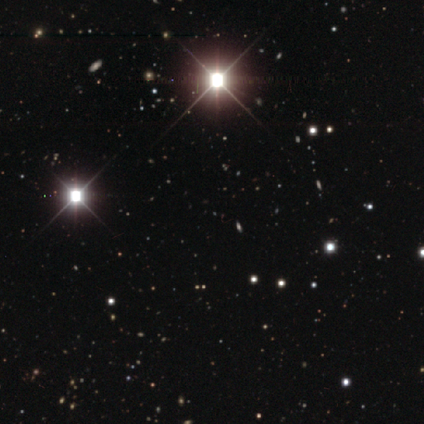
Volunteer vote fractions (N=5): A star or artifact, not a galaxy (100%).